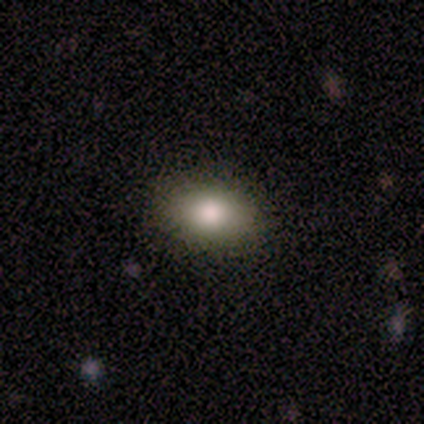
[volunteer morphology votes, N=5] Smooth or featured: smooth — 80% (star or artifact — 20%)
How rounded: in between — 75% (round — 25%)
Merging: none — 75% (minor disturbance — 25%)